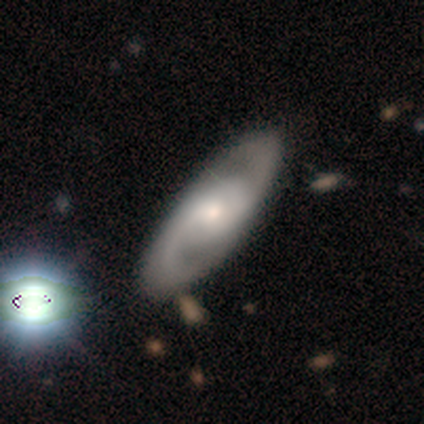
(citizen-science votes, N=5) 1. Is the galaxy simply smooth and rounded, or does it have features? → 60% featured or disk, 40% smooth, 0% star or artifact.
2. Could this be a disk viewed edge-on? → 100% no, 0% yes.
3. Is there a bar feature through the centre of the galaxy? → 67% weak, 33% no, 0% strong.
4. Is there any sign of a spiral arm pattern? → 100% yes, 0% no.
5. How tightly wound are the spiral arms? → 67% tight, 33% medium, 0% loose.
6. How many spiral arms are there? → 100% 2, 0% 1, 0% 3, 0% 4, 0% more than 4, 0% can't tell.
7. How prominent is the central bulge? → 67% moderate, 33% small, 0% dominant, 0% large, 0% none.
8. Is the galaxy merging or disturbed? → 60% none, 40% major disturbance, 0% minor disturbance, 0% merger.